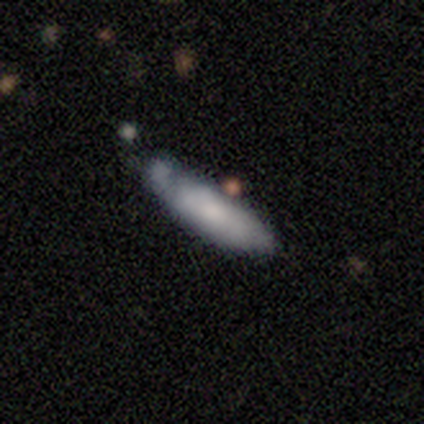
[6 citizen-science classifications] Smooth or featured: smooth — 100%
How rounded: cigar-shaped — 67% (in between — 33%)
Merging: minor disturbance — 83% (none — 17%)